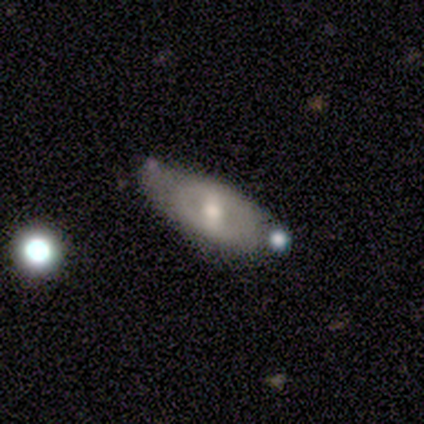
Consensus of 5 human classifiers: Smooth or featured: featured or disk — 80% (smooth — 20%)
Edge-on disk: no — 75% (yes — 25%)
Bar: no — 67% (weak — 33%)
Spiral arms: no — 100%
Bulge size: moderate — 100%
Merging: minor disturbance — 40% (none — 20%)